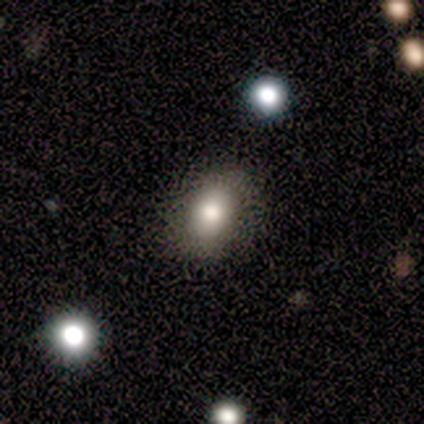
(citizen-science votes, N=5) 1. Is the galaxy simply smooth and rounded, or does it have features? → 80% smooth, 20% featured or disk, 0% star or artifact.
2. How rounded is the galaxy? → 50% round (tied), 50% in between (tied), 0% cigar-shaped.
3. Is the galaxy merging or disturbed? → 80% none, 20% minor disturbance, 0% major disturbance, 0% merger.